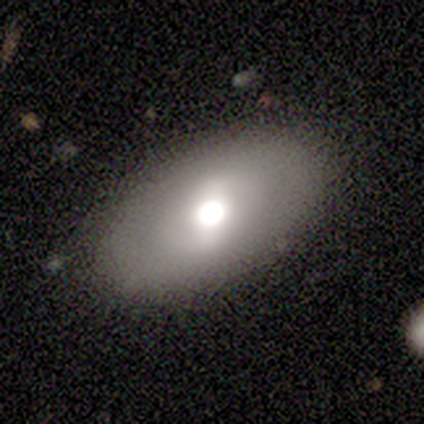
Smooth or featured: smooth — 60% (featured or disk — 40%)
How rounded: in between — 100%
Merging: none — 80% (major disturbance — 20%)